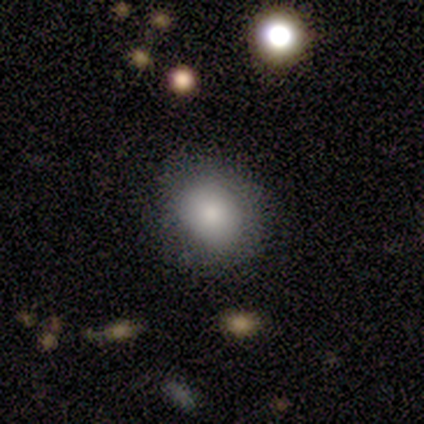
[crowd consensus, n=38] A smooth galaxy with no disk features (79%) that is round (53%).

Vote fractions:
- Smooth or featured? smooth: 79% / featured or disk: 11% / star or artifact: 11%
- How rounded? round: 53% / in between: 47% / cigar-shaped: 0%
- Merging? none: 74% / minor disturbance: 26% / major disturbance: 0% / merger: 0%